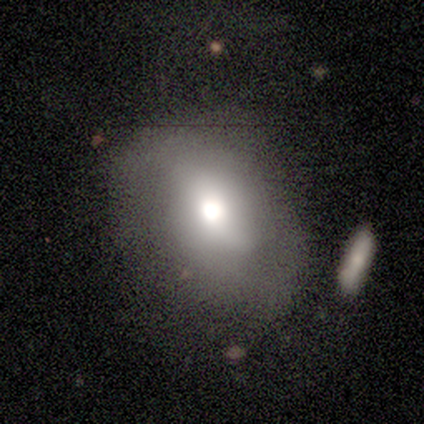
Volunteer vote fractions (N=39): Smooth or featured?
  - smooth: 51% *
  - featured or disk: 33%
  - star or artifact: 15%
How rounded?
  - in between: 55% *
  - round: 45%
  - cigar-shaped: 0%
Merging?
  - none: 64% *
  - minor disturbance: 18%
  - major disturbance: 9%
  - merger: 9%